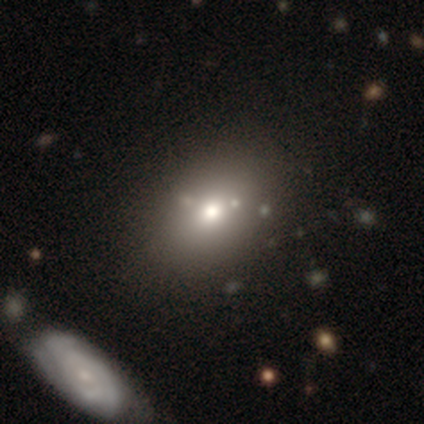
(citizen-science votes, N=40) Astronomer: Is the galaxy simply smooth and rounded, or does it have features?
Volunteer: smooth — 52%.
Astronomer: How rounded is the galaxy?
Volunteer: in between — 71%.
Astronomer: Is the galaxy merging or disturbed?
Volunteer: none — 84%.